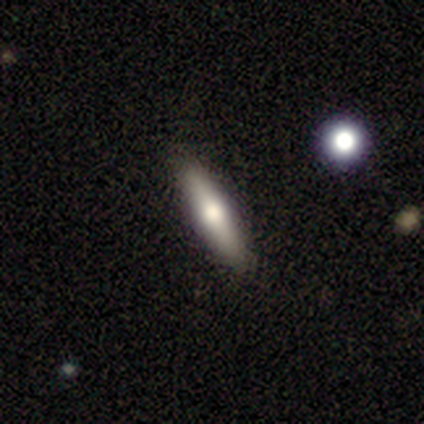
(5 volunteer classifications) Smooth or featured? smooth (60%)
How rounded? cigar-shaped (67%)
Merging? none (80%)